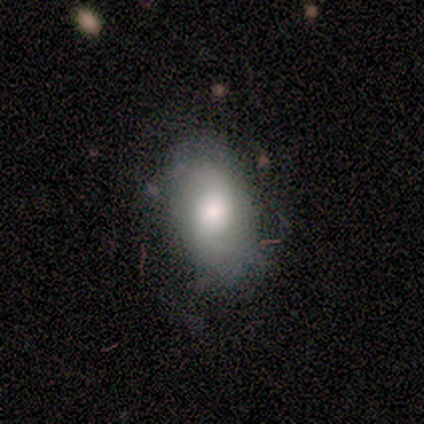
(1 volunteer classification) Smooth or featured?
  - featured or disk: 100% *
  - smooth: 0%
  - star or artifact: 0%
Edge-on disk?
  - no: 100% *
  - yes: 0%
Bar?
  - no: 100% *
  - strong: 0%
  - weak: 0%
Spiral arms?
  - yes: 100% *
  - no: 0%
Spiral winding?
  - tight: 100% *
  - medium: 0%
  - loose: 0%
Spiral arm count?
  - can't tell: 100% *
  - 1: 0%
  - 2: 0%
  - 3: 0%
  - 4: 0%
  - more than 4: 0%
Bulge size?
  - moderate: 100% *
  - dominant: 0%
  - large: 0%
  - small: 0%
  - none: 0%
Merging?
  - minor disturbance: 100% *
  - none: 0%
  - major disturbance: 0%
  - merger: 0%